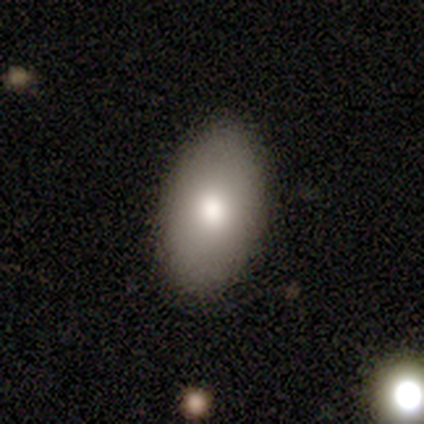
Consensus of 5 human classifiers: A featured or disk galaxy (60%) viewed edge-on (67%) with a rounded central bulge (100%). Merging: none (80%).